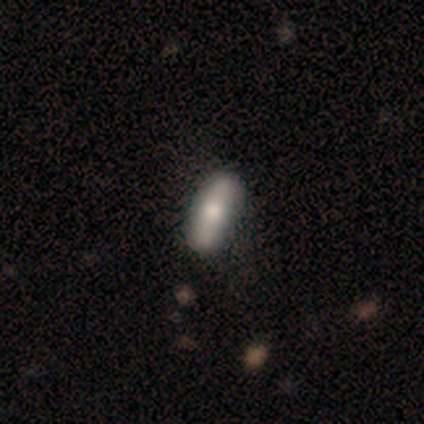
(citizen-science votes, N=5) This is clearly a smooth galaxy (80%). How rounded: likely cigar-shaped (75%). Merging: clearly none (80%).